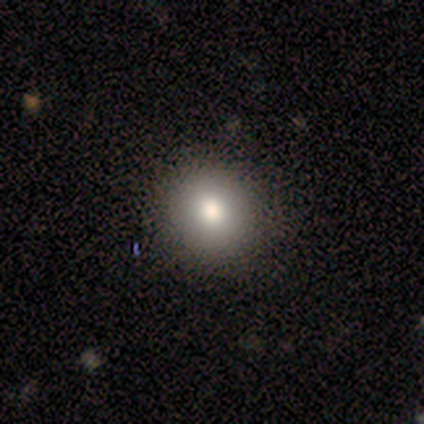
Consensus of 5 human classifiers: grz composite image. It shows a smooth galaxy with no disk features (80%) that is round (100%). Merging: none (100%).